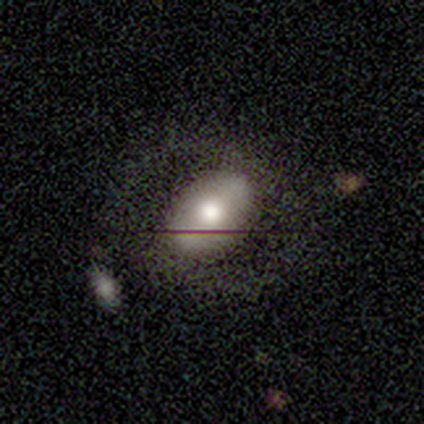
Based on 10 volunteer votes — Morphology: type=smooth (70%); roundness=in between (86%); merging=none (60%).